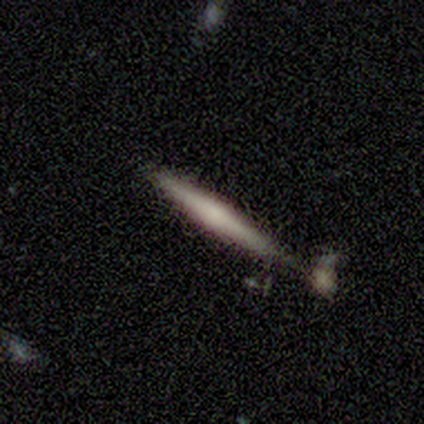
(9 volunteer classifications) Q: Smooth or featured?
A: featured or disk (56%); runner-up: smooth (44%)
Q: Edge-on disk?
A: yes (100%)
Q: Edge-on bulge?
A: none (60%); runner-up: boxy (20%)
Q: Merging?
A: none (89%); runner-up: minor disturbance (11%)